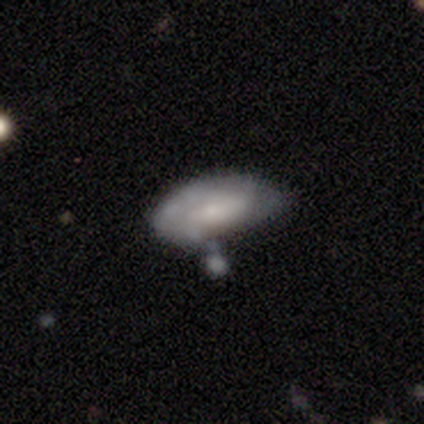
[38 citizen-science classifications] A featured or disk galaxy (61%) with no bar (65%), tight (69%) spiral arms (57%) and a small central bulge (52%). Merging: minor disturbance (34%).